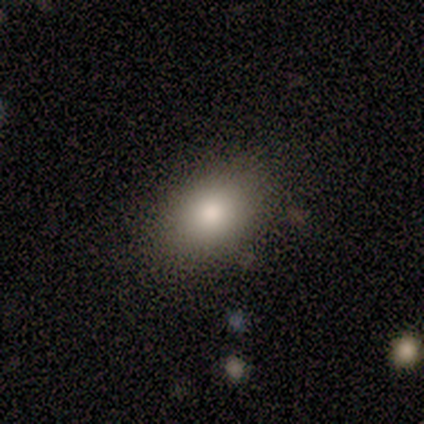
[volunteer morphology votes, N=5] Q: Smooth or featured?
A: smooth (80%); runner-up: star or artifact (20%)
Q: How rounded?
A: in between (100%)
Q: Merging?
A: none (75%); runner-up: minor disturbance (25%)